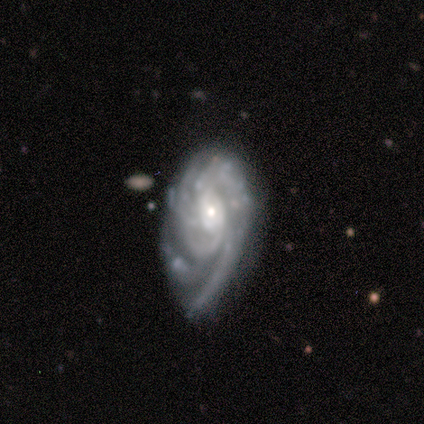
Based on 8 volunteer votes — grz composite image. It shows a featured or disk galaxy (75%) with a weak bar (67%), tight (50%) spiral arms (100%) and a small central bulge (100%). Merging: minor disturbance (57%).